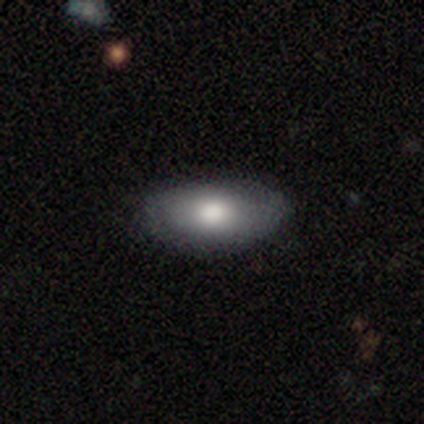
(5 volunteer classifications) This is marginally a smooth galaxy (40%, tied with featured or disk). How rounded: clearly in between (100%). Merging: likely none (75%).